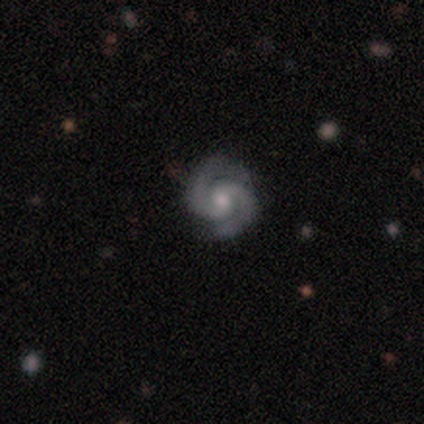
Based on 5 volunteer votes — Smooth or featured: featured or disk — 80% (smooth — 20%)
Edge-on disk: no — 100%
Bar: no — 75% (weak — 25%)
Spiral arms: yes — 100%
Spiral winding: tight — 50% (tied with medium — 50%)
Spiral arm count: 2 — 100%
Bulge size: small — 50% (large — 25%)
Merging: none — 80% (major disturbance — 20%)